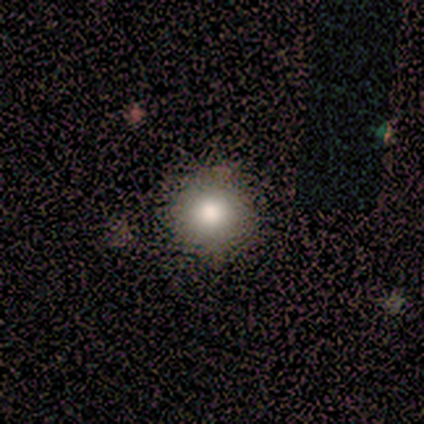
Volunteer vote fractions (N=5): smooth-or-featured: smooth: 80% | star or artifact: 20% | featured or disk: 0%
  how-rounded: round: 100% | in between: 0% | cigar-shaped: 0%
  merging: none: 75% | minor disturbance: 25% | major disturbance: 0% | merger: 0%